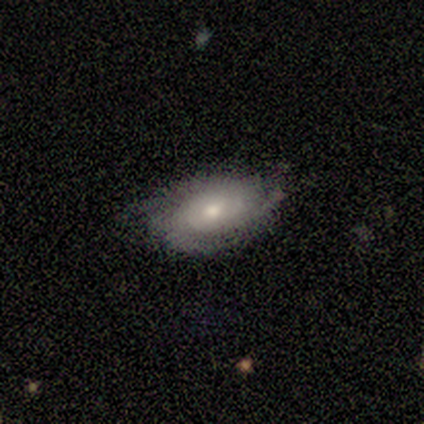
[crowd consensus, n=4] smooth_or_featured: smooth (p=0.50) [tied with: featured or disk p=0.50]
how_rounded: in between (p=1.00)
merging: minor disturbance (p=0.50) [alt: none p=0.25]